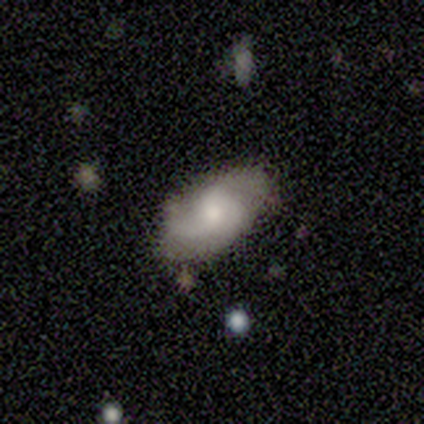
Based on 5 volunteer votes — This is clearly a featured or disk galaxy (100%). It is clearly not viewed edge-on (100%). Bar: likely no (60%). Spiral arm pattern: clearly yes (80%). Spiral arm count: possibly 1 (50%). Spiral winding: possibly tight (50%, tied with loose). Central bulge: clearly moderate (80%). Merging: clearly none (80%).